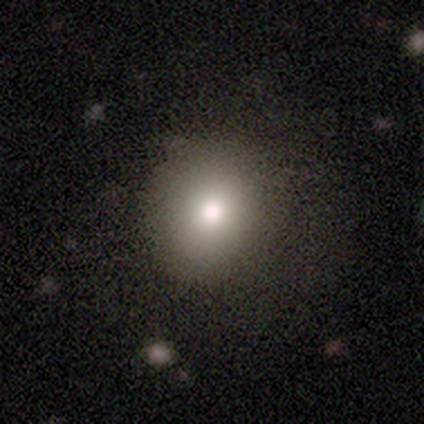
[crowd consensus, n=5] Volunteers were most divided on "smooth or featured": smooth: 80%, featured or disk: 20%, star or artifact: 0%. More confident: how rounded — round (100%); merging — none (100%).